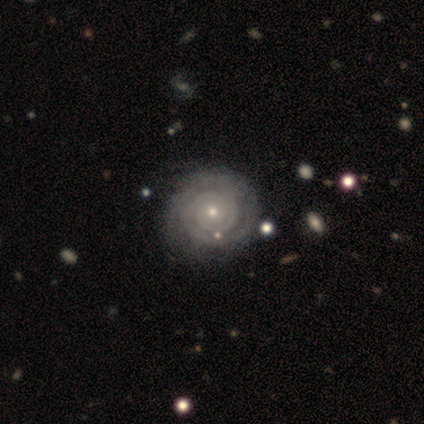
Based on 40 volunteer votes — Overall: featured or disk (78%). Edge-on disk: no (97%). Bar: no (93%). Spiral arms: yes (87%). Spiral arm count: 2 (42%; can't tell 31%). Spiral winding: tight (92%). Bulge size: small (60%; moderate 40%). Merging: none (82%).